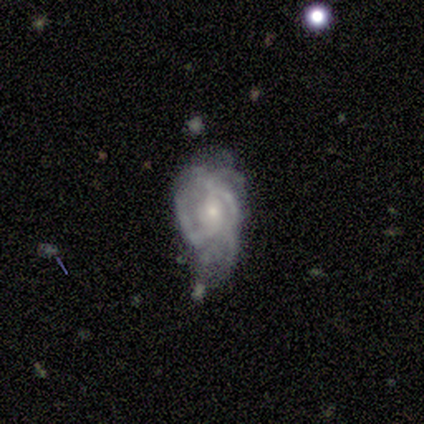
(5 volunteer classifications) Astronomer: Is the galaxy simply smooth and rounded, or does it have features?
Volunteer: featured or disk — 60% (runner-up: smooth, 40%).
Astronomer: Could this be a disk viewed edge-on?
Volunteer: no — 100%.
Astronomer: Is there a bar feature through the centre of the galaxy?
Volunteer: no — 67%.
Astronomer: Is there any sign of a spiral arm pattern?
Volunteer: yes — 100%.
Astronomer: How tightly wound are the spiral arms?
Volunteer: tight — 33%, tied with medium and loose at 33%.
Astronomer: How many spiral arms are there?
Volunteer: can't tell — 67%.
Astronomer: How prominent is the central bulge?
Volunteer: small — 100%.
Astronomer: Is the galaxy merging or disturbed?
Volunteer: minor disturbance — 60%.